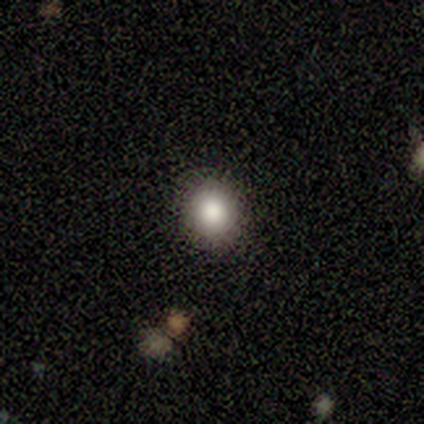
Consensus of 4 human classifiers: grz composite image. It shows a smooth galaxy with no disk features (50%, tied with star or artifact) that is round (100%). Merging: none (100%).